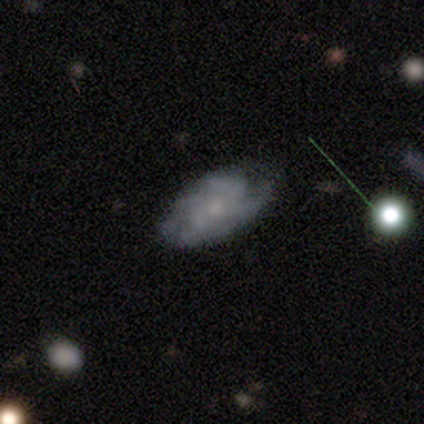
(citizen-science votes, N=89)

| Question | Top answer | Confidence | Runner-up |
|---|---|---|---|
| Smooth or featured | featured or disk | 69% | smooth (24%) |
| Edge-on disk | no | 95% | yes (5%) |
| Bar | no | 84% | weak (14%) |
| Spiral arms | yes | 86% | no (14%) |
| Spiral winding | tight | 42% | medium (32%) |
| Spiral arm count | can't tell | 42% | 4 (22%) |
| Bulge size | small | 55% | moderate (21%) |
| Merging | none | 61% | minor disturbance (27%) |